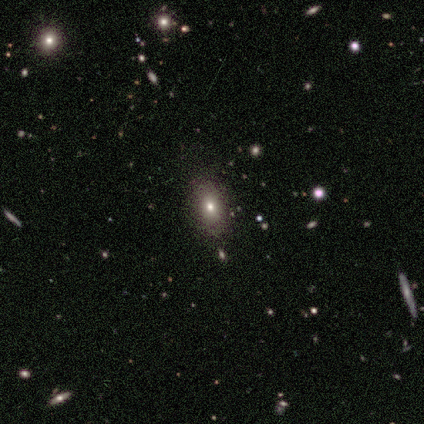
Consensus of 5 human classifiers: Morphology: type=smooth (60%); roundness=in between (67%); merging=none (50%, tied with minor disturbance).